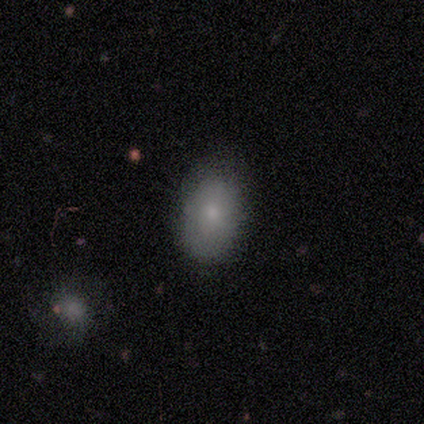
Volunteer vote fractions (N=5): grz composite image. It shows a smooth galaxy with no disk features (60%) that is in between round and cigar-shaped (67%). Merging: none (100%).